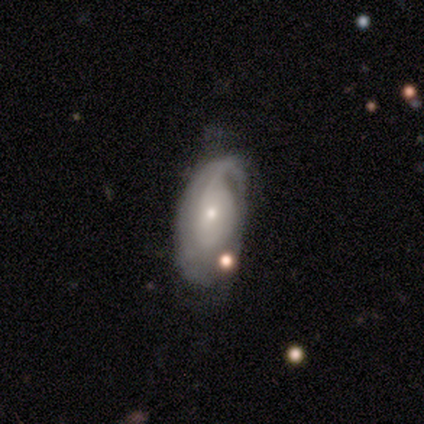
A featured or disk galaxy (60%) with no bar (100%), 1 (100%) medium (100%) spiral arms (100%) and a small central bulge (67%). Merging: none (80%).